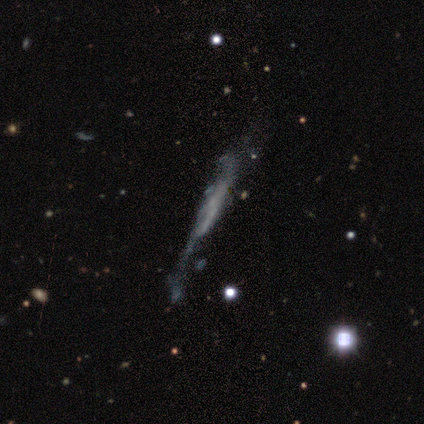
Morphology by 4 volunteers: type=smooth (50%); roundness=cigar-shaped (100%); merging=none (67%).